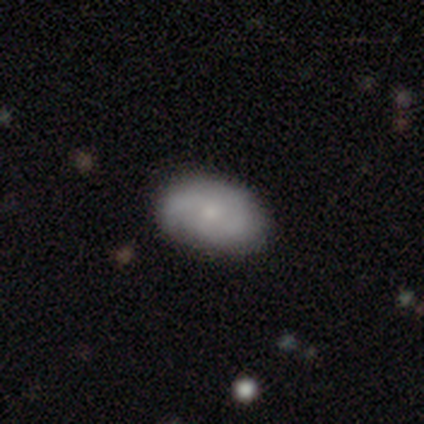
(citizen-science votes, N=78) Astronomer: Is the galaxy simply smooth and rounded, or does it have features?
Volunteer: smooth — 49% (runner-up: featured or disk, 44%).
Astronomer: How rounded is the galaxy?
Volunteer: in between — 84%.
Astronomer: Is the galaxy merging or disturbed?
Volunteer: none — 40%.